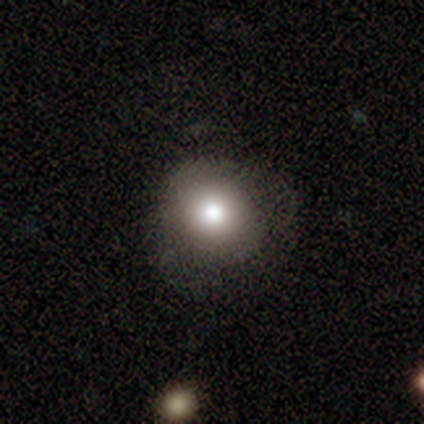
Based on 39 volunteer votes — Q: Smooth or featured?
A: smooth (79%); runner-up: featured or disk (18%)
Q: How rounded?
A: round (90%); runner-up: in between (10%)
Q: Merging?
A: none (63%); runner-up: minor disturbance (26%)